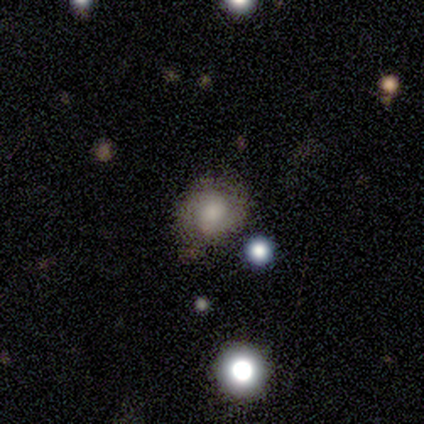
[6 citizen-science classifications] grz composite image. It shows a featured or disk galaxy (83%) with no bar (80%), 2 (75%) tight (75%) spiral arms (80%) and a large central bulge (60%). Merging: none (83%).